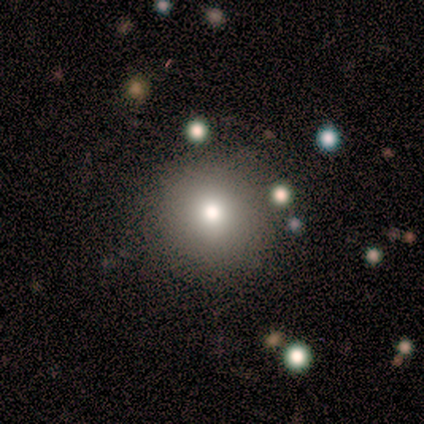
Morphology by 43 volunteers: Smooth or featured? 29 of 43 (67%) said smooth. How rounded? 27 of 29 (93%) said round. Merging? 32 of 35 (91%) said none.